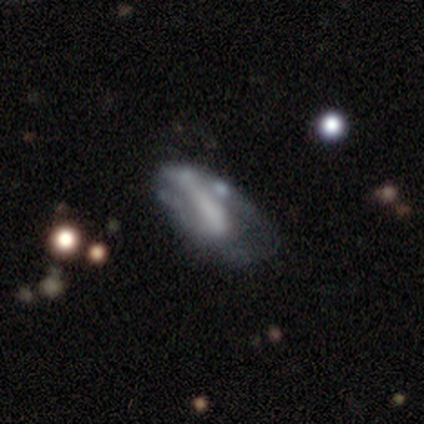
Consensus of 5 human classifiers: Volunteers were most divided on "smooth or featured": smooth: 60%, featured or disk: 20%, star or artifact: 20%. More confident: how rounded — in between (100%); merging — major disturbance (75%).